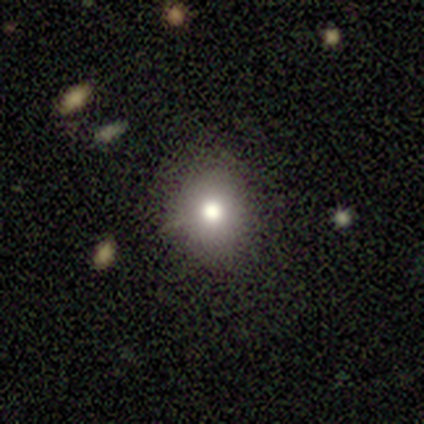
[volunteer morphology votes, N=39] Smooth or featured: smooth — 79% (featured or disk — 10%)
How rounded: round — 90% (in between — 10%)
Merging: none — 89% (minor disturbance — 9%)